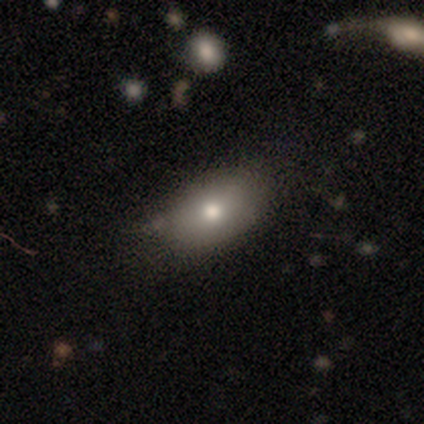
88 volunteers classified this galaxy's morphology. smooth-or-featured: smooth: 83% | star or artifact: 12% | featured or disk: 5%
  how-rounded: in between: 92% | round: 4% | cigar-shaped: 4%
  merging: none: 58% | minor disturbance: 32% | major disturbance: 5% | merger: 4%